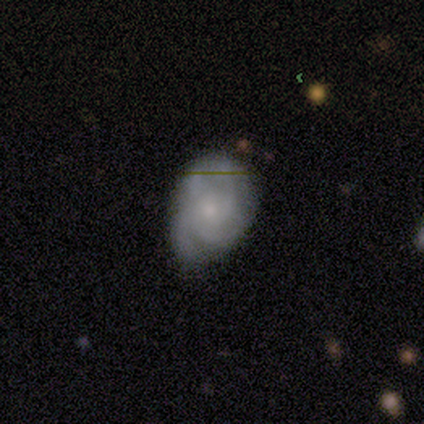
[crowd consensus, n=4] Morphology: type=featured or disk (75%); edge-on=no (100%); bar=no (67%); spiral arms=yes (100%); winding=tight (100%); arm count=2 (33%, tied with 3 and 4); bulge=moderate (67%); merging=none (100%).